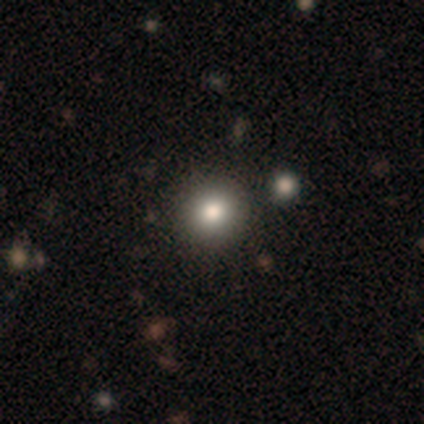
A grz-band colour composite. It shows a smooth galaxy with no disk features (100%) that is round (100%). Merging: none (75%).